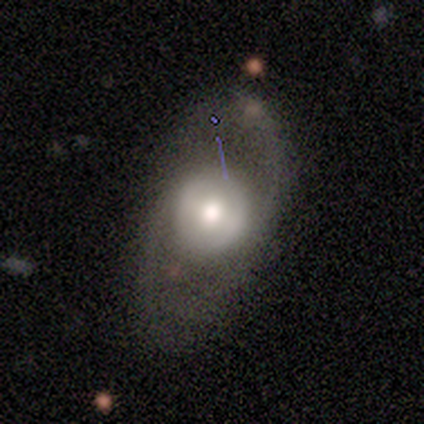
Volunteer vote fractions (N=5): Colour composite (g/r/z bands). It shows a featured or disk galaxy (80%) with no bar (67%), no spiral arms (67%) and a moderate central bulge (67%). Merging: major disturbance (60%).